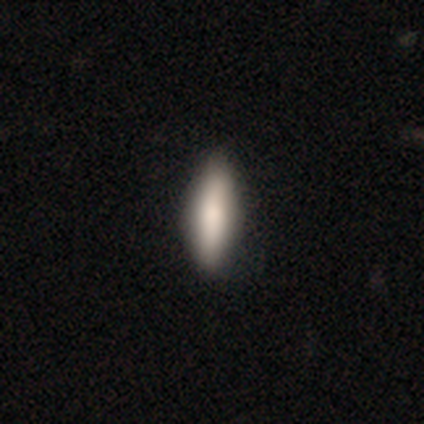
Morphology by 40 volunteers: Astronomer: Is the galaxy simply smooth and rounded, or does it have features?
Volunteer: smooth — 68%.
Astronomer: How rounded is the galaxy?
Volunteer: in between — 67%.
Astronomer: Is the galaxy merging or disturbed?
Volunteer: none — 67%.